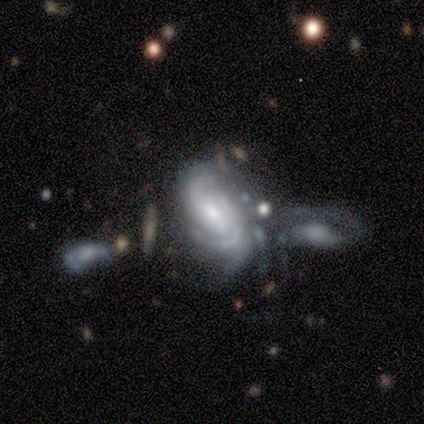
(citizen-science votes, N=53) Volunteers were most divided on "merging": none: 31%, minor disturbance: 29%, merger: 27%, major disturbance: 13%. More confident: edge-on disk — no (100%); smooth or featured — featured or disk (92%); spiral arms — yes (92%); bulge size — moderate (63%); spiral arm count — 2 (53%); bar — no (53%); spiral winding — medium (51%).